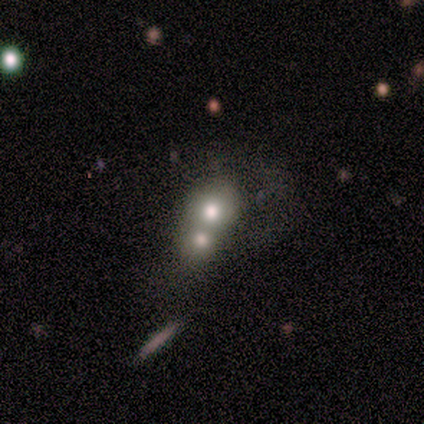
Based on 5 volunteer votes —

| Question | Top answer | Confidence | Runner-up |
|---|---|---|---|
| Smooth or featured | smooth | 80% | featured or disk (20%) |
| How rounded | round | 100% | — |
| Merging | merger | 60% | none (40%) |